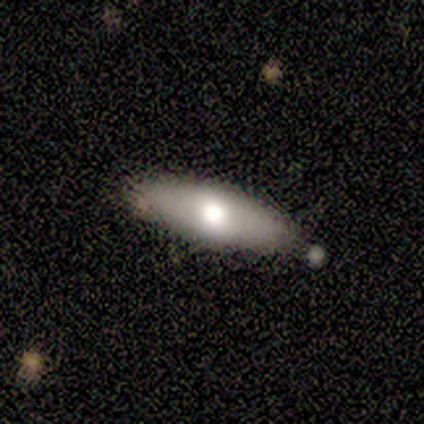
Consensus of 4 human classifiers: smooth 75%, featured or disk 25%, star or artifact 0%. Down the decision tree: how rounded — cigar-shaped (67%); merging — none (75%).